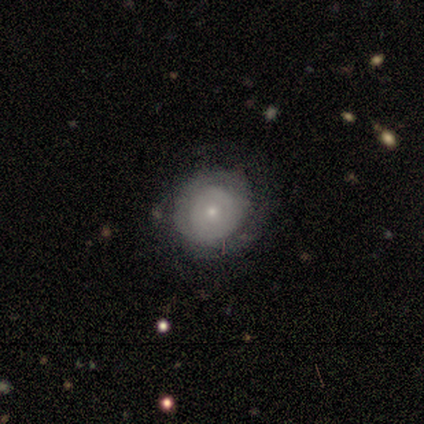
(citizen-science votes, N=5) This is likely a featured or disk galaxy (60%). It is clearly not viewed edge-on (100%). Bar: likely no (67%). Spiral arm pattern: likely no (67%). Central bulge: likely small (67%). Merging: clearly none (80%).